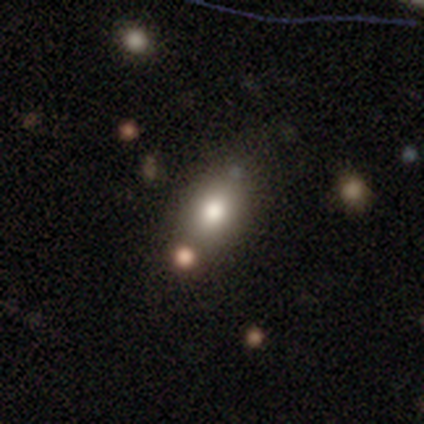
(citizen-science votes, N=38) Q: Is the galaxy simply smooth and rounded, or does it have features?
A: smooth — 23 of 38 (61%).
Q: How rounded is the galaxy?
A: in between — 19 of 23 (83%).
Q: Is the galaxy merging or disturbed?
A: none — 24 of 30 (80%).